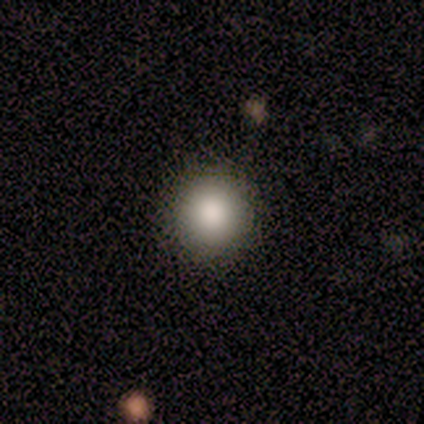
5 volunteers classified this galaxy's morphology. Smooth or featured?
  - smooth: 100% *
  - featured or disk: 0%
  - star or artifact: 0%
How rounded?
  - round: 80% *
  - in between: 20%
  - cigar-shaped: 0%
Merging?
  - none: 100% *
  - minor disturbance: 0%
  - major disturbance: 0%
  - merger: 0%